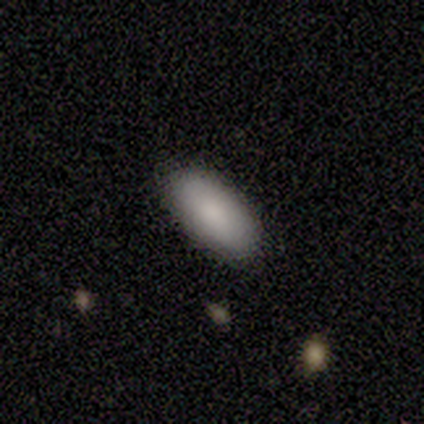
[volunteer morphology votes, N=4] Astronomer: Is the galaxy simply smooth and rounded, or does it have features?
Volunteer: smooth — 100%.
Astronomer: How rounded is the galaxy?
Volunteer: in between — 100%.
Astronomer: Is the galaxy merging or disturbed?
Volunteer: none — 100%.